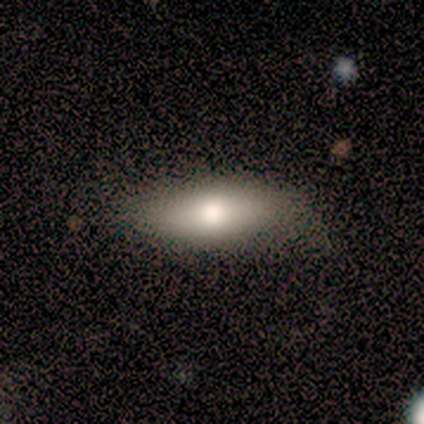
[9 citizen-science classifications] Smooth or featured: smooth — 44% (tied with featured or disk — 44%)
How rounded: in between — 50% (round — 25%)
Merging: none — 75% (minor disturbance — 25%)